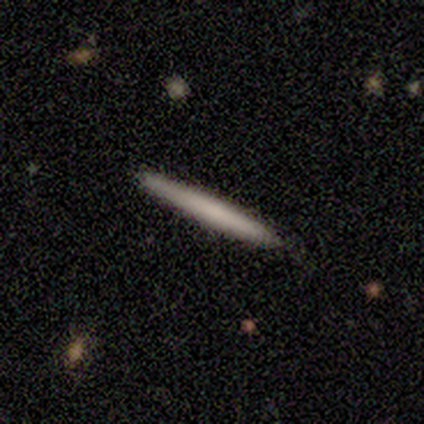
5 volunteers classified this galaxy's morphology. type=smooth (80%); roundness=cigar-shaped (100%); merging=none (100%).